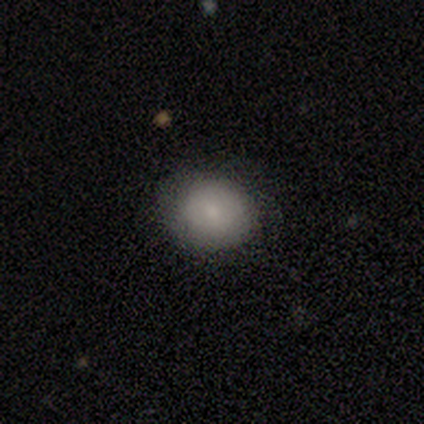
smooth_or_featured: smooth (p=0.60) [alt: featured or disk p=0.20]
how_rounded: round (p=0.67) [alt: in between p=0.33]
merging: none (p=1.00)